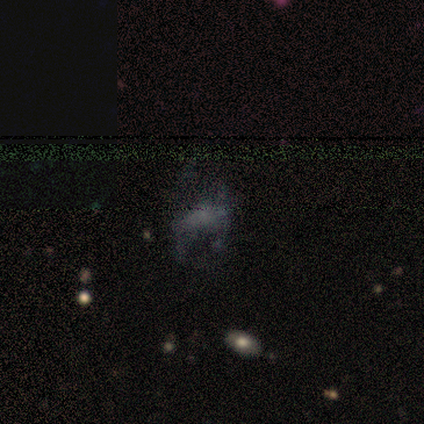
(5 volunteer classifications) smooth 40% (tied), star or artifact 40% (tied), featured or disk 20%. Down the decision tree: how rounded — in between (100%); merging — none (33%, tied with minor disturbance and major disturbance).